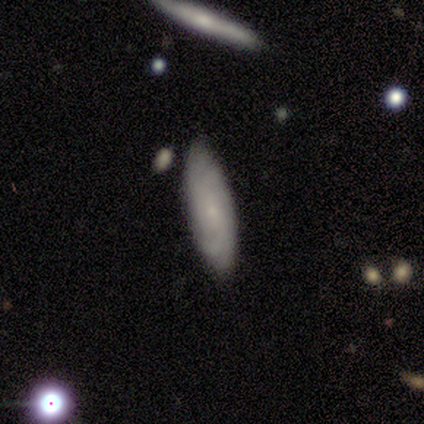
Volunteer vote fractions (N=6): A smooth galaxy with no disk features (50%, tied with featured or disk) that is cigar-shaped (100%).

Vote fractions:
- Smooth or featured? smooth: 50% (tied) / featured or disk: 50% (tied) / star or artifact: 0%
- How rounded? cigar-shaped: 100% / round: 0% / in between: 0%
- Merging? none: 83% / minor disturbance: 17% / major disturbance: 0% / merger: 0%